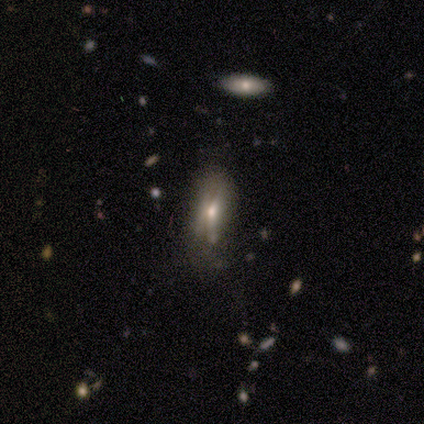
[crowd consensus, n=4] This appears to be a smooth galaxy with no disk features (50%) that is in between round and cigar-shaped (100%). Merging: none (67%).